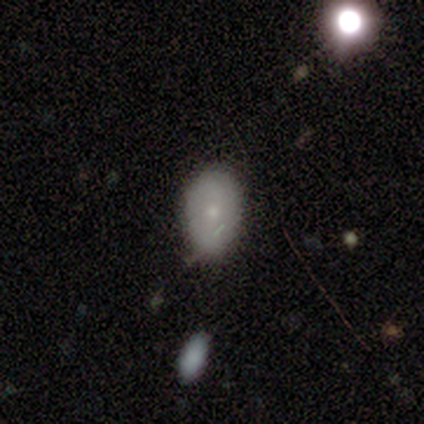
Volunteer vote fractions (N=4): Q: Smooth or featured?
A: smooth (75%); runner-up: featured or disk (25%)
Q: How rounded?
A: in between (67%); runner-up: round (33%)
Q: Merging?
A: none (75%); runner-up: minor disturbance (25%)